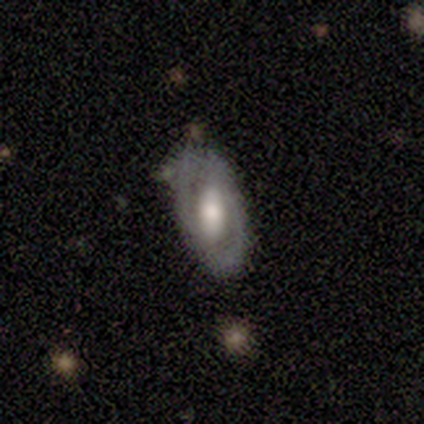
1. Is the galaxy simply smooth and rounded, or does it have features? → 75% featured or disk, 25% smooth, 0% star or artifact.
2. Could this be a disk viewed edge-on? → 100% no, 0% yes.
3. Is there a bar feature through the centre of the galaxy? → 67% strong, 33% weak, 0% no.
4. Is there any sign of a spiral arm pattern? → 67% no, 33% yes.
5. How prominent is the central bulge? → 67% large, 33% moderate, 0% dominant, 0% small, 0% none.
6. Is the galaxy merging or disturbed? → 75% none, 25% minor disturbance, 0% major disturbance, 0% merger.